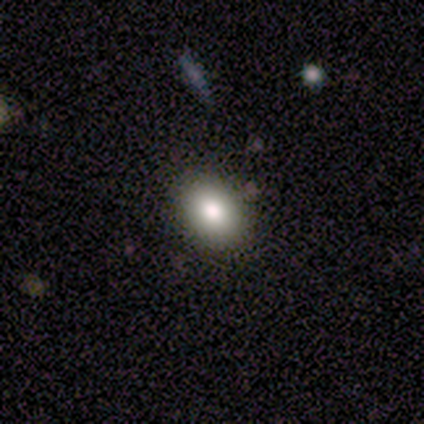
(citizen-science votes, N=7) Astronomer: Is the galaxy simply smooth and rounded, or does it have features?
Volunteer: smooth — 71%.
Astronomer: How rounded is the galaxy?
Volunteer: in between — 100%.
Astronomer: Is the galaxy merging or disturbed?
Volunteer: none — 100%.